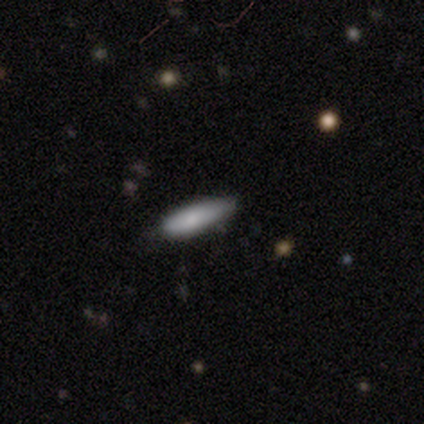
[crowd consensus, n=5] Smooth or featured?
  - smooth: 80% *
  - star or artifact: 20%
  - featured or disk: 0%
How rounded?
  - cigar-shaped: 100% *
  - round: 0%
  - in between: 0%
Merging?
  - none: 50% * (tied)
  - minor disturbance: 50% * (tied)
  - major disturbance: 0%
  - merger: 0%